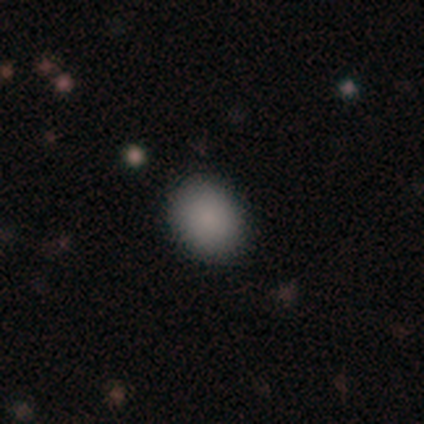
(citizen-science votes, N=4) A smooth galaxy with no disk features (75%) that is round (67%). Merging: none (100%).